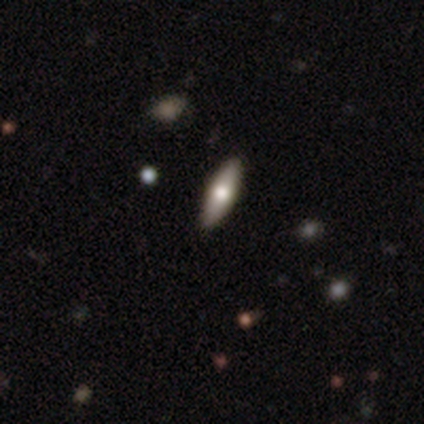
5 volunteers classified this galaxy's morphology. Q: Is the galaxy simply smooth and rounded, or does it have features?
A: smooth — 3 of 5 (60%).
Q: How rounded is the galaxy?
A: cigar-shaped — 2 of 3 (67%).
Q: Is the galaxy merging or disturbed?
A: none — 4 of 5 (80%).